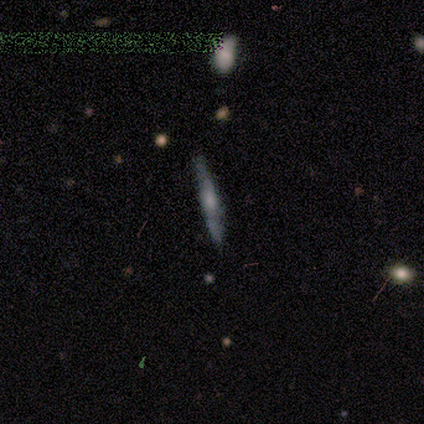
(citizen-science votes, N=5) Smooth or featured: smooth — 80% (featured or disk — 20%)
How rounded: cigar-shaped — 100%
Merging: none — 80% (minor disturbance — 20%)